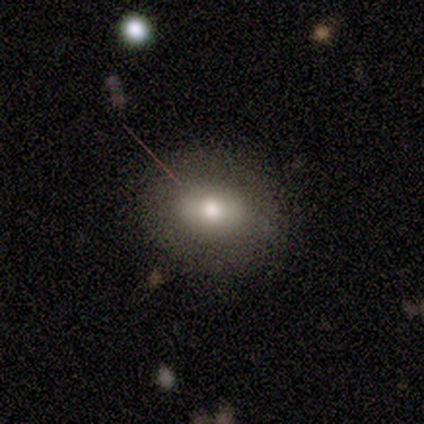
smooth_or_featured: smooth (p=0.74) [alt: star or artifact p=0.18]
how_rounded: round (p=0.68) [alt: in between p=0.32]
merging: none (p=0.94) [alt: minor disturbance p=0.03]